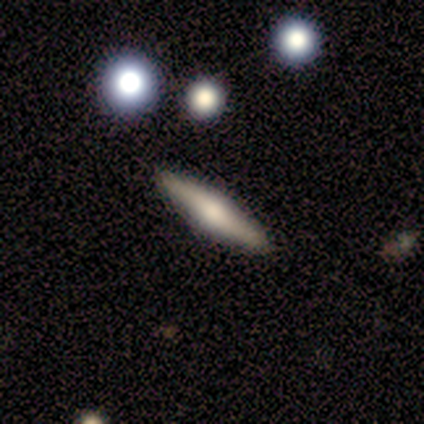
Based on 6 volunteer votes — Smooth or featured: smooth — 50% (tied with featured or disk — 50%)
How rounded: cigar-shaped — 100%
Merging: none — 100%